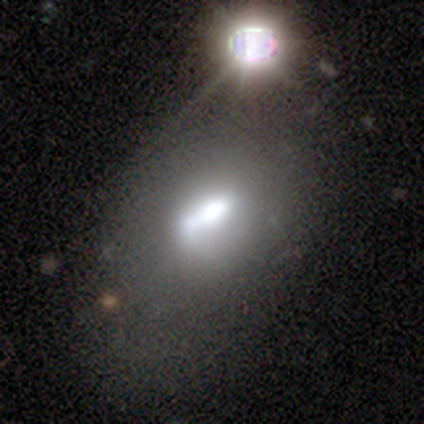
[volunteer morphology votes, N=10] Volunteers were most divided on "bar" (3-way tie): strong: 33%, weak: 33%, no: 33%. Remaining: spiral arms — no (100%); edge-on disk — no (86%); smooth or featured — featured or disk (70%); bulge size — moderate (67%); merging — none (44%).